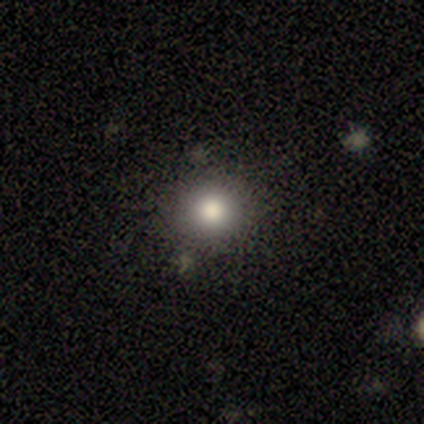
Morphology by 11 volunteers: Smooth or featured? 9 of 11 (82%) said smooth. How rounded? 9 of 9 (100%) said round. Merging? 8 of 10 (80%) said none.